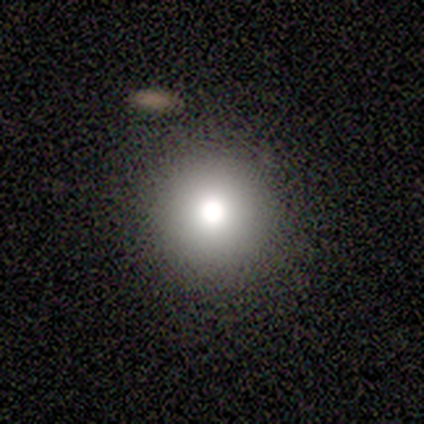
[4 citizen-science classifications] Smooth or featured? 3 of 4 (75%) said smooth. How rounded? 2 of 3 (67%) said round. Merging? 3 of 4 (75%) said none.